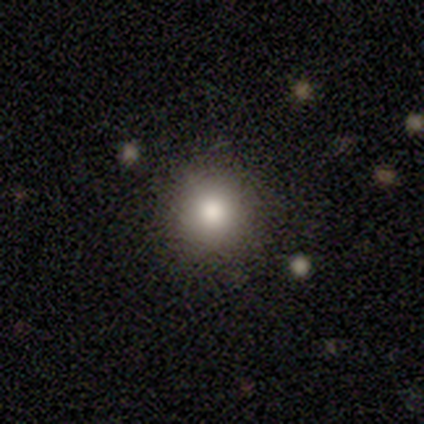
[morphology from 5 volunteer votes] Smooth or featured? smooth (100%)
How rounded? round (60%)
Merging? none (80%)